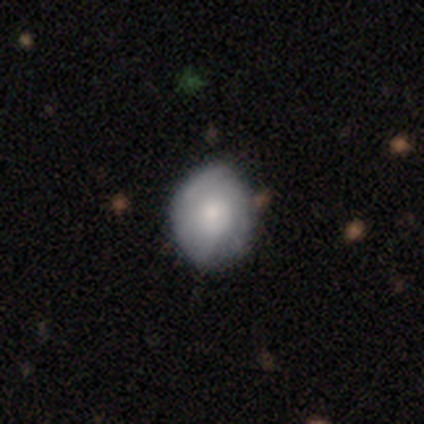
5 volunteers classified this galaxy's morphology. Volunteers were most divided on "merging": none: 50%, minor disturbance: 25%, major disturbance: 25%, merger: 0%. More confident: how rounded — in between (100%); smooth or featured — smooth (60%).